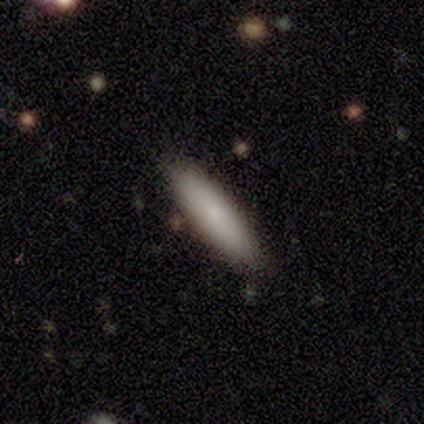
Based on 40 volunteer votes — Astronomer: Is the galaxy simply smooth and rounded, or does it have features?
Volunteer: smooth — 82%.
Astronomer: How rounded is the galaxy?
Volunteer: cigar-shaped — 67%.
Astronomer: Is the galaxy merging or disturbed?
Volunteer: none — 65%.